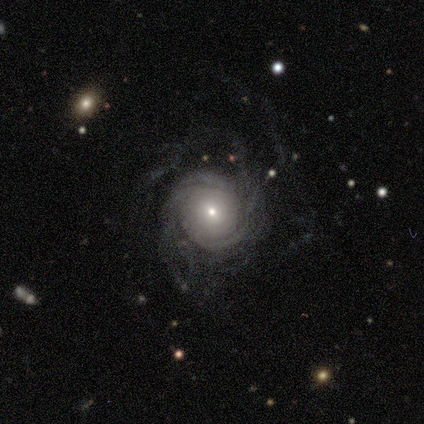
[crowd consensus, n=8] featured or disk 88%, star or artifact 12%, smooth 0%. Down the decision tree: edge-on disk — no (100%); bar — no (71%); spiral arms — yes (100%); spiral arm count — can't tell (43%); spiral winding — tight (57%); bulge size — small (86%); merging — none (57%).